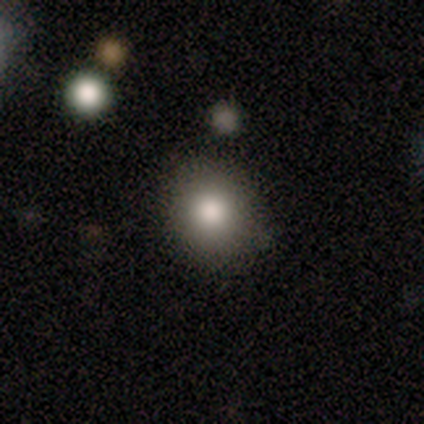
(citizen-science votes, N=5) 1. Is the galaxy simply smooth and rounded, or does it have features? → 80% smooth, 20% star or artifact, 0% featured or disk.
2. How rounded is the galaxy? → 75% round, 25% in between, 0% cigar-shaped.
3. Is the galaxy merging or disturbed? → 75% none, 25% minor disturbance, 0% major disturbance, 0% merger.